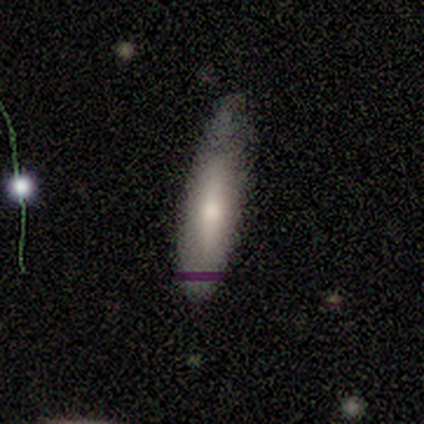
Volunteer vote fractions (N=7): Volunteers were most divided on "how rounded": cigar-shaped: 60%, in between: 40%, round: 0%. More confident: smooth or featured — smooth (71%); merging — minor disturbance (71%).